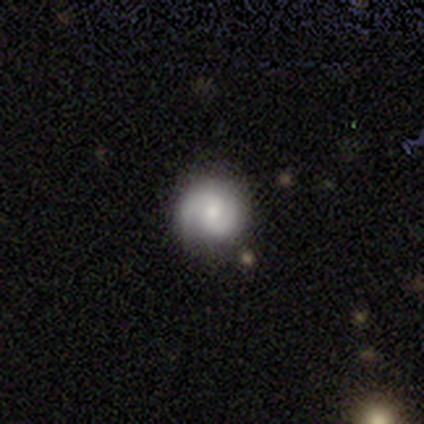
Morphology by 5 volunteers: Smooth or featured?
  - featured or disk: 80% *
  - smooth: 20%
  - star or artifact: 0%
Edge-on disk?
  - no: 100% *
  - yes: 0%
Bar?
  - weak: 50% * (tied)
  - no: 50% * (tied)
  - strong: 0%
Spiral arms?
  - yes: 100% *
  - no: 0%
Spiral winding?
  - medium: 75% *
  - tight: 25%
  - loose: 0%
Spiral arm count?
  - 2: 100% *
  - 1: 0%
  - 3: 0%
  - 4: 0%
  - more than 4: 0%
  - can't tell: 0%
Bulge size?
  - small: 75% *
  - moderate: 25%
  - dominant: 0%
  - large: 0%
  - none: 0%
Merging?
  - none: 60% *
  - minor disturbance: 40%
  - major disturbance: 0%
  - merger: 0%